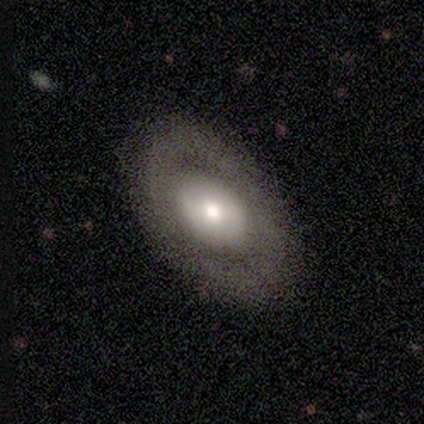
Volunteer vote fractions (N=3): smooth_or_featured: featured or disk (p=0.67) [alt: smooth p=0.33]
disk_edge_on: no (p=1.00)
bar: no (p=1.00)
has_spiral_arms: no (p=1.00)
bulge_size: large (p=0.50) [tied with: small p=0.50]
merging: none (p=1.00)